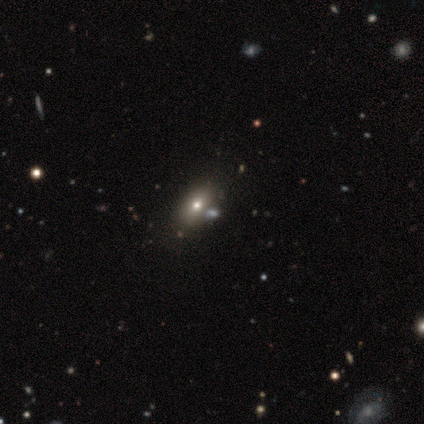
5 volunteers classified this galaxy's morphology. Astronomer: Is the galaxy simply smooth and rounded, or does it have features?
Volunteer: smooth — 80%.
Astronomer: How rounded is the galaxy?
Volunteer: in between — 75%.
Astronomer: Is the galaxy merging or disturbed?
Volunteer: none — 75%.